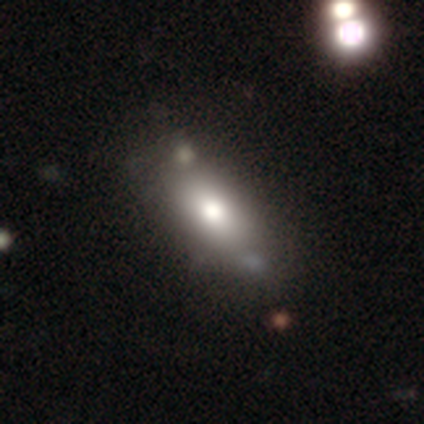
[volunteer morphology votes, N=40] A smooth galaxy with no disk features (62%) that is in between round and cigar-shaped (88%). Merging: none (34%).